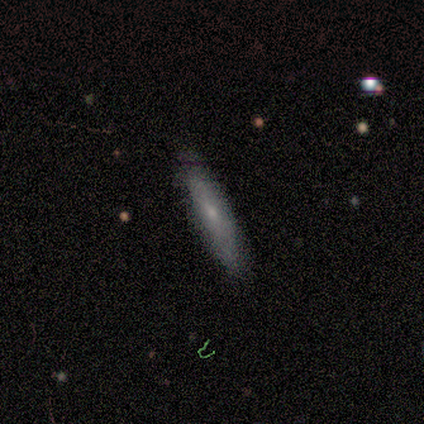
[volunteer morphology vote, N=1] Smooth or featured? 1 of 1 (100%) said featured or disk. Edge-on disk? 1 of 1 (100%) said no. Bar? 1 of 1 (100%) said no. Spiral arms? 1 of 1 (100%) said no. Bulge size? 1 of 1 (100%) said small. Merging? 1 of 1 (100%) said none.